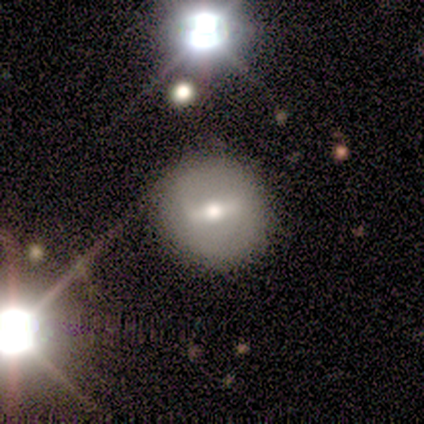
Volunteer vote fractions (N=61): A featured or disk galaxy (62%) with a strong bar (49%), no spiral arms (86%) and a moderate central bulge (69%). Merging: none (84%).